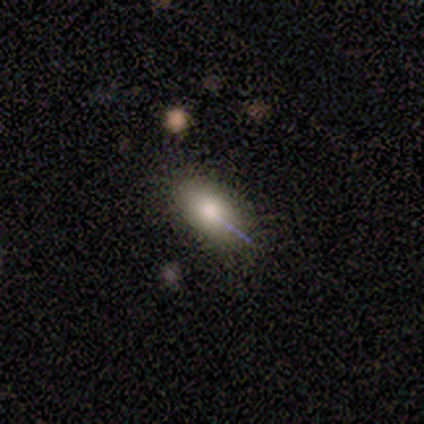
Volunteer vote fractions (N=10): smooth_or_featured: smooth (p=0.90) [alt: featured or disk p=0.10]
how_rounded: in between (p=0.89) [alt: cigar-shaped p=0.11]
merging: none (p=1.00)